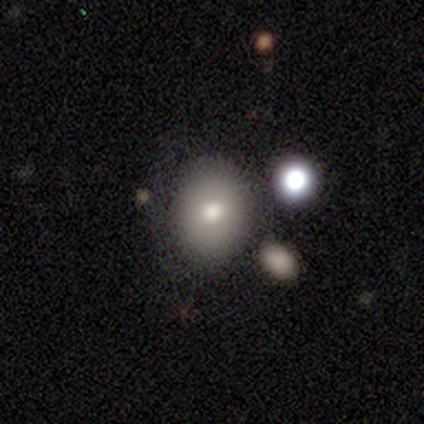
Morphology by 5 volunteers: Q: Smooth or featured?
A: smooth (80%); runner-up: featured or disk (20%)
Q: How rounded?
A: round (75%); runner-up: in between (25%)
Q: Merging?
A: none (40%); tied with: merger (40%)